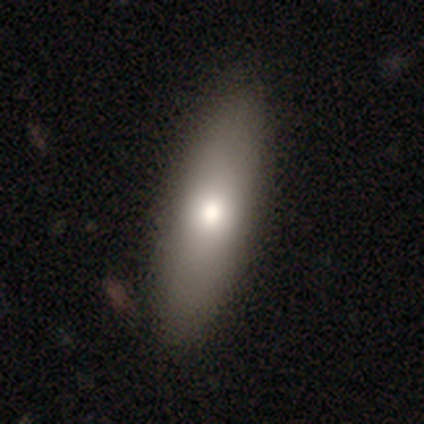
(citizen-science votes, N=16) Morphology: type=smooth (75%); roundness=in between (50%, tied with cigar-shaped); merging=none (100%).